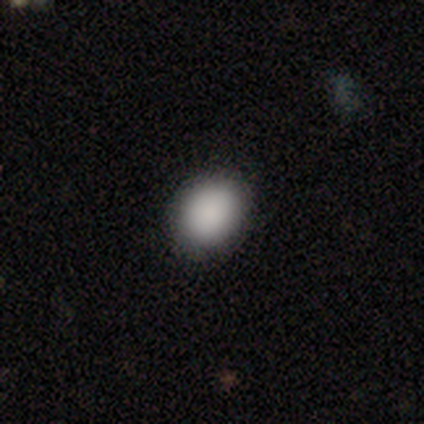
Smooth or featured? 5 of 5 (100%) said smooth. How rounded? 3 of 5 (60%) said in between. Merging? 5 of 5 (100%) said none.